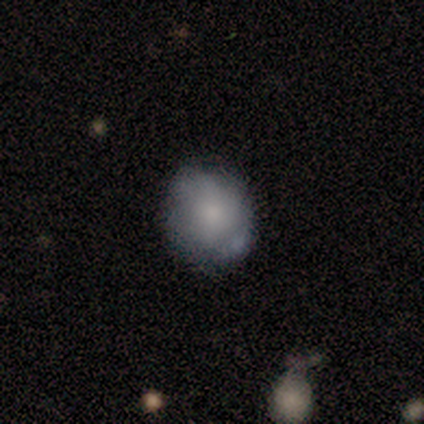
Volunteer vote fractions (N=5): smooth_or_featured: smooth (p=1.00)
how_rounded: round (p=0.60) [alt: in between p=0.40]
merging: none (p=0.60) [alt: minor disturbance p=0.40]